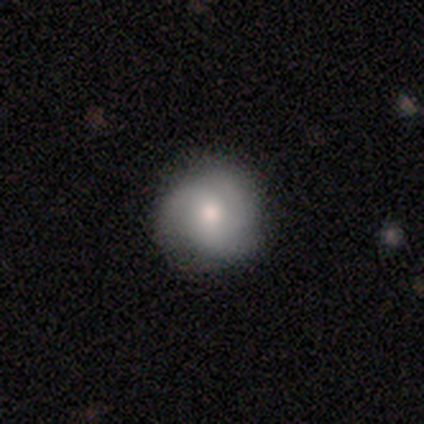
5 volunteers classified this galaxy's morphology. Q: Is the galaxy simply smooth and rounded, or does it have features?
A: featured or disk — 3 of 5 (60%).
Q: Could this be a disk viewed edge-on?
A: no — 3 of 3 (100%).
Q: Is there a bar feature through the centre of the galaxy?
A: no — 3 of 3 (100%).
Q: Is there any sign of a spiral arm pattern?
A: yes — 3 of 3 (100%).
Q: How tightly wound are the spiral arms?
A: tight — 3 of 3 (100%).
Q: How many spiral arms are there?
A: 3 — 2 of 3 (67%).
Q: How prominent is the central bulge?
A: moderate — 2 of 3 (67%).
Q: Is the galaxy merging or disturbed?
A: none — 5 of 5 (100%).